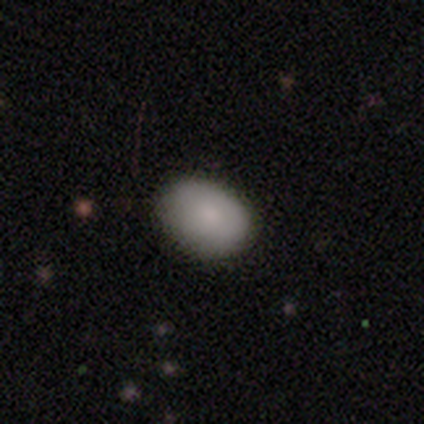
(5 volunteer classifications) smooth_or_featured: smooth (p=0.40) [tied with: featured or disk p=0.40]
how_rounded: round (p=0.50) [tied with: in between p=0.50]
merging: none (p=1.00)